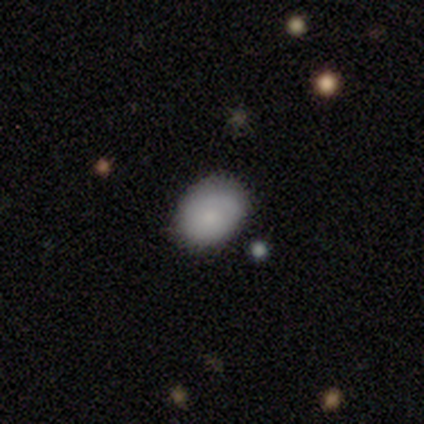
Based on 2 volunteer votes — Volunteers were most divided on "smooth or featured" (2-way tie): featured or disk: 50%, star or artifact: 50%, smooth: 0%. More confident: edge-on disk — no (100%); bar — no (100%); spiral arms — no (100%); bulge size — moderate (100%); merging — minor disturbance (100%).